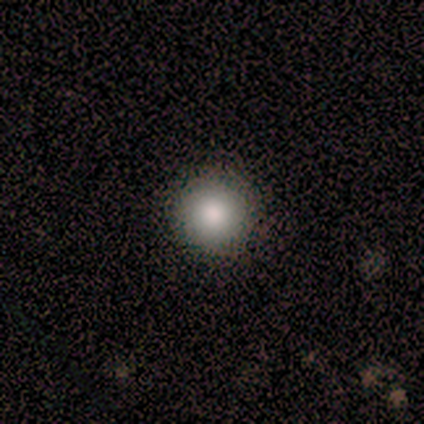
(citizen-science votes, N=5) Overall: smooth (80%). How rounded: round (100%). Merging: none (100%).